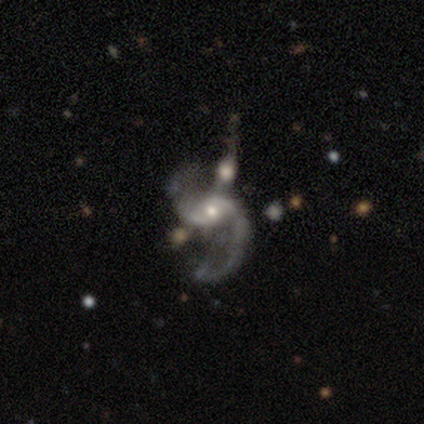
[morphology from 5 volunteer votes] Overall: featured or disk (100%). Edge-on disk: no (100%). Bar: no (60%; strong 20%). Spiral arms: yes (100%). Spiral arm count: 2 (100%). Spiral winding: loose (80%). Bulge size: moderate (100%). Merging: merger (40%; none 20%).